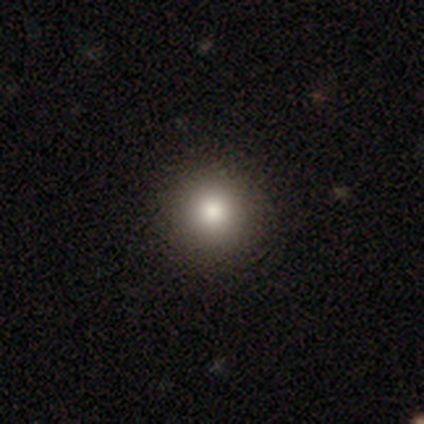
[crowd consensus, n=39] smooth_or_featured: smooth (p=0.79) [alt: star or artifact p=0.13]
how_rounded: round (p=0.94) [alt: in between p=0.06]
merging: none (p=0.65) [alt: minor disturbance p=0.06]